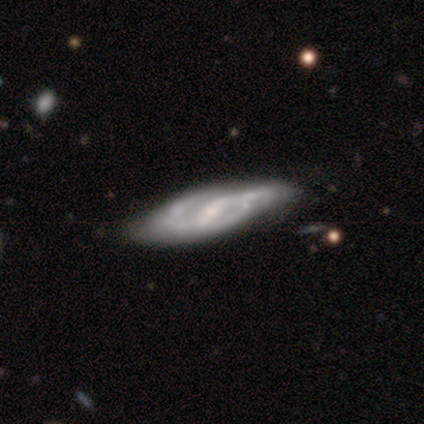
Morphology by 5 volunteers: This is clearly a featured or disk galaxy (100%). It is clearly not viewed edge-on (100%). Bar: likely strong (60%). Spiral arm pattern: clearly yes (80%). Spiral arm count: likely 2 (75%). Spiral winding: possibly tight (50%, tied with medium). Central bulge: likely small (60%). Merging: likely none (60%).